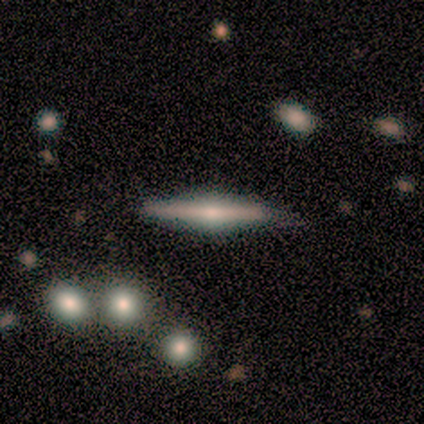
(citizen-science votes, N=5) smooth-or-featured: featured or disk: 80% | smooth: 20% | star or artifact: 0%
  disk-edge-on: yes: 100% | no: 0%
    edge-on-bulge: rounded: 100% | boxy: 0% | none: 0%
  merging: none: 100% | minor disturbance: 0% | major disturbance: 0% | merger: 0%